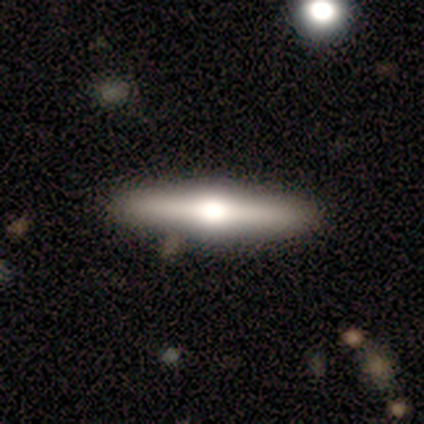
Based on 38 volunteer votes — smooth_or_featured: featured or disk (p=0.61) [alt: smooth p=0.32]
disk_edge_on: yes (p=0.96) [alt: no p=0.04]
edge_on_bulge: rounded (p=0.91) [alt: boxy p=0.09]
merging: none (p=0.86) [alt: minor disturbance p=0.11]